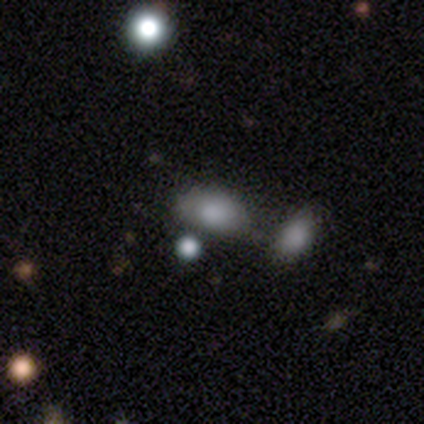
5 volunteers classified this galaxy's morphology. Volunteers were most divided on "smooth or featured": smooth: 60%, featured or disk: 40%, star or artifact: 0%. More confident: how rounded — in between (100%); merging — none (80%).